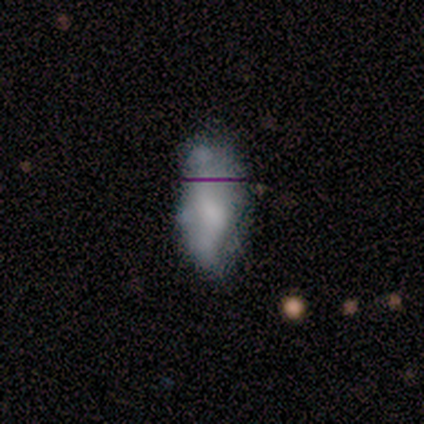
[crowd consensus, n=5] This appears to be a smooth galaxy with no disk features (80%) that is in between round and cigar-shaped (75%). Merging: none (60%).